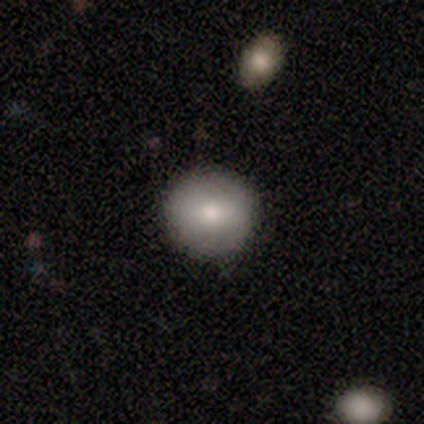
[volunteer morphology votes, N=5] Smooth or featured: smooth — 100%
How rounded: round — 80% (in between — 20%)
Merging: none — 100%